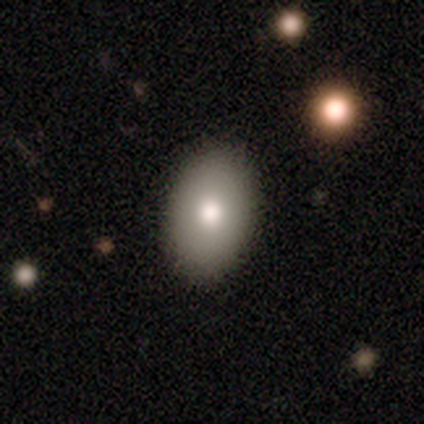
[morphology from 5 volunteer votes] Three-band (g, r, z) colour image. It shows a smooth galaxy with no disk features (100%) that is in between round and cigar-shaped (80%). Merging: none (100%).